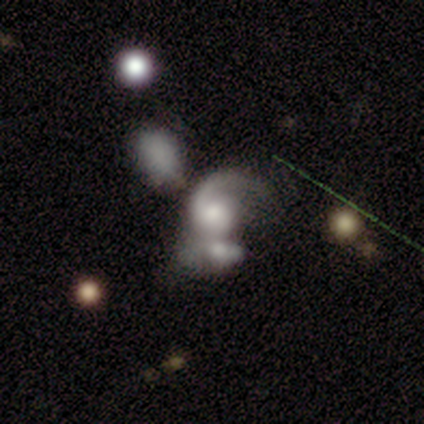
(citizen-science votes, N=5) Volunteers were most divided on "smooth or featured" (2-way tie): smooth: 40%, featured or disk: 40%, star or artifact: 20%; "how rounded" (2-way tie): round: 50%, in between: 50%, cigar-shaped: 0%. More confident: merging — merger (100%).